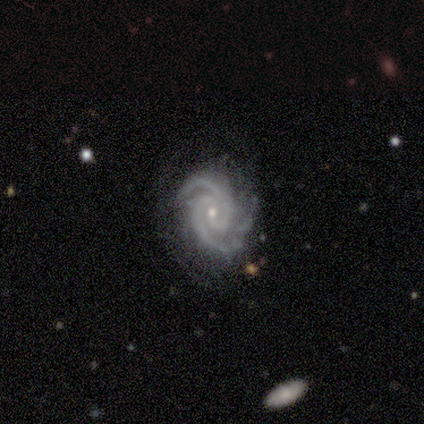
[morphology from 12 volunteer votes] Smooth or featured: featured or disk — 100%
Edge-on disk: no — 100%
Bar: no — 67% (weak — 25%)
Spiral arms: yes — 100%
Spiral winding: tight — 58% (medium — 33%)
Spiral arm count: 2 — 92% (3 — 8%)
Bulge size: small — 83% (moderate — 17%)
Merging: none — 50% (minor disturbance — 33%)